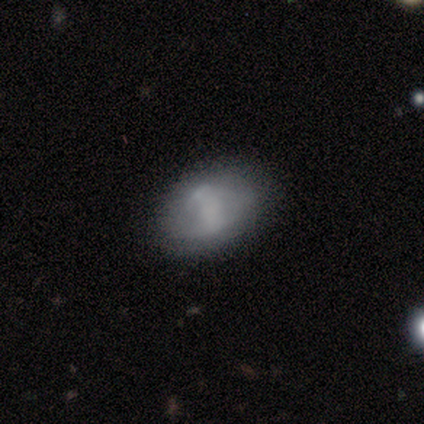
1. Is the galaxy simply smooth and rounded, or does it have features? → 60% featured or disk, 40% smooth, 0% star or artifact.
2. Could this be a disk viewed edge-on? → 100% no, 0% yes.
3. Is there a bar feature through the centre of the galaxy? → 67% no, 33% weak, 0% strong.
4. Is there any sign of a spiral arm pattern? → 100% no, 0% yes.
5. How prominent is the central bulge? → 100% none, 0% dominant, 0% large, 0% moderate, 0% small.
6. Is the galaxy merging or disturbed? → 60% none, 40% minor disturbance, 0% major disturbance, 0% merger.